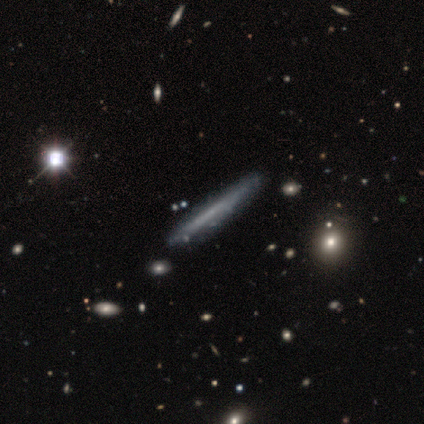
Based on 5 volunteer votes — This is likely a smooth galaxy (60%). How rounded: clearly cigar-shaped (100%). Merging: clearly none (80%).